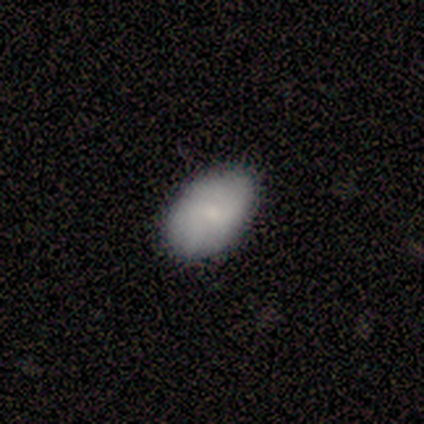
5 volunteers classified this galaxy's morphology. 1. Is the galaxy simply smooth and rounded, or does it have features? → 60% smooth, 40% featured or disk, 0% star or artifact.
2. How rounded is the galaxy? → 100% in between, 0% round, 0% cigar-shaped.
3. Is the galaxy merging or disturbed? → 100% none, 0% minor disturbance, 0% major disturbance, 0% merger.